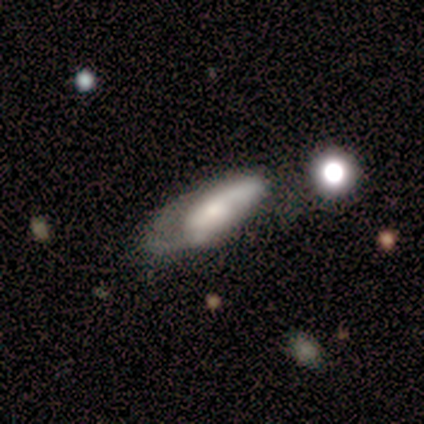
smooth_or_featured: featured or disk (p=0.60) [alt: smooth p=0.40]
disk_edge_on: no (p=0.67) [alt: yes p=0.33]
bar: weak (p=1.00)
has_spiral_arms: yes (p=1.00)
spiral_winding: medium (p=1.00)
spiral_arm_count: 1 (p=0.50) [tied with: 2 p=0.50]
bulge_size: large (p=0.50) [tied with: small p=0.50]
merging: minor disturbance (p=0.40) [tied with: major disturbance p=0.40]